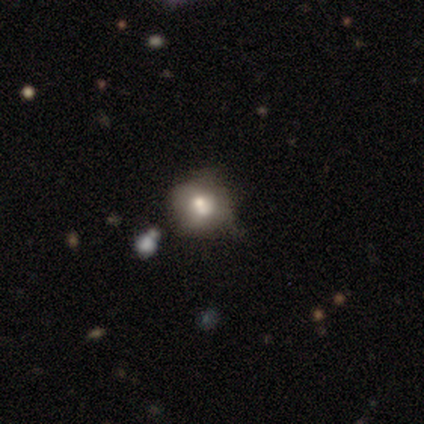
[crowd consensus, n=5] Overall: featured or disk (60%; smooth 40%). Edge-on disk: no (100%). Bar: no (100%). Spiral arms: no (100%). Bulge size: moderate (67%; small 33%). Merging: none (40%, tied with merger).